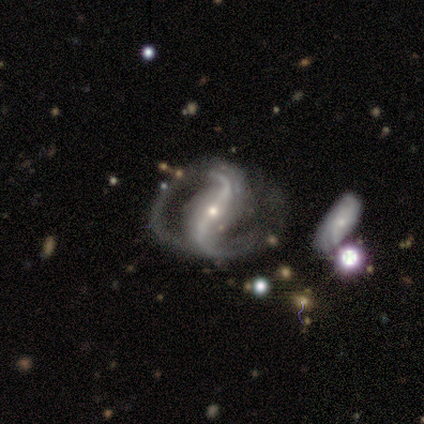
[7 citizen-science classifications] A featured or disk galaxy (100%) with a strong bar (57%), 2 (100%) loose (86%) spiral arms (100%) and a small central bulge (86%). Merging: none (57%).